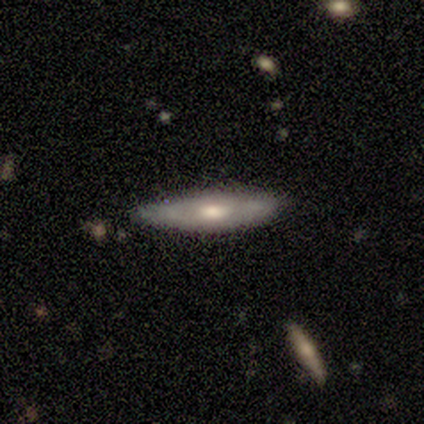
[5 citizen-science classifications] This appears to be a featured or disk galaxy (80%) viewed edge-on (50%, tied with no) with a rounded central bulge (100%). Merging: none (60%).